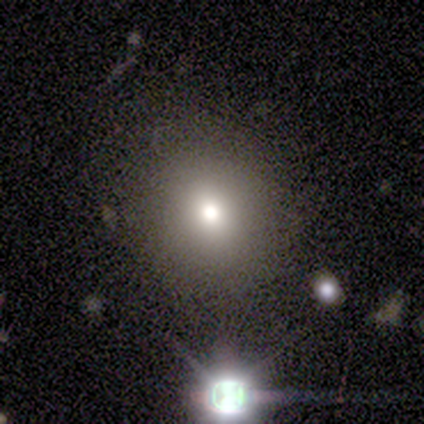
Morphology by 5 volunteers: smooth_or_featured: smooth (p=1.00)
how_rounded: round (p=0.80) [alt: in between p=0.20]
merging: none (p=0.80) [alt: minor disturbance p=0.20]